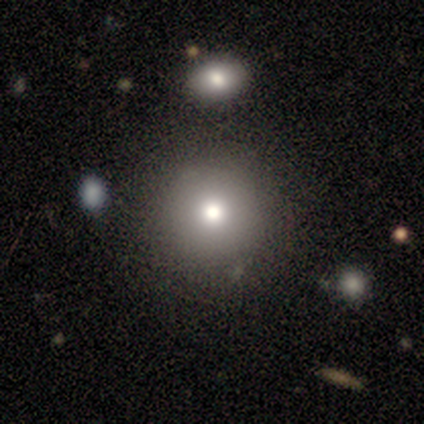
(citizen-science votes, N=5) A smooth galaxy with no disk features (40%, tied with star or artifact) that is round (100%).

Vote fractions:
- Smooth or featured? smooth: 40% (tied) / star or artifact: 40% (tied) / featured or disk: 20%
- How rounded? round: 100% / in between: 0% / cigar-shaped: 0%
- Merging? none: 100% / minor disturbance: 0% / major disturbance: 0% / merger: 0%